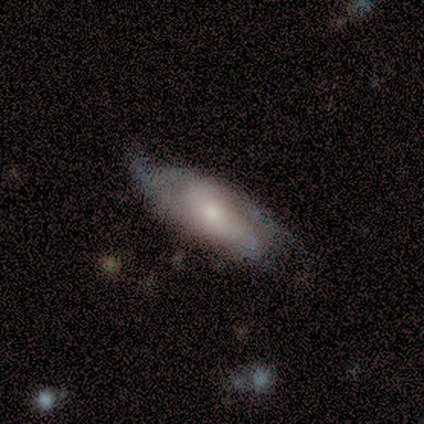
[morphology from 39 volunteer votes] smooth-or-featured: featured or disk: 67% | smooth: 28% | star or artifact: 5%
  disk-edge-on: no: 65% | yes: 35%
    bar: no: 53% | weak: 41% | strong: 6%
    has-spiral-arms: yes: 88% | no: 12%
      spiral-winding: medium: 40% | loose: 33% | tight: 27%
      spiral-arm-count: 2: 47% | can't tell: 33% | 3: 13% | 1: 7% | 4: 0% | more than 4: 0%
    bulge-size: moderate: 59% | small: 41% | dominant: 0% | large: 0% | none: 0%
  merging: none: 59% | minor disturbance: 32% | major disturbance: 5% | merger: 3%